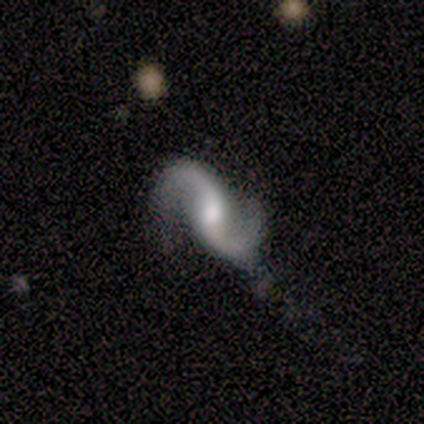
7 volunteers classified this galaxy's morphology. Q: Smooth or featured?
A: featured or disk (100%)
Q: Edge-on disk?
A: no (100%)
Q: Bar?
A: strong (43%); tied with: weak (43%)
Q: Spiral arms?
A: yes (100%)
Q: Spiral winding?
A: loose (71%); runner-up: medium (29%)
Q: Spiral arm count?
A: 2 (86%); runner-up: 1 (14%)
Q: Bulge size?
A: moderate (57%); runner-up: none (29%)
Q: Merging?
A: none (71%); runner-up: minor disturbance (29%)